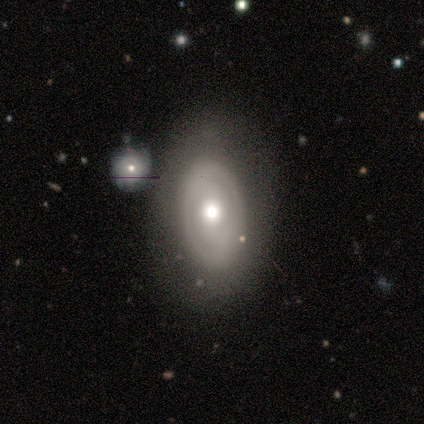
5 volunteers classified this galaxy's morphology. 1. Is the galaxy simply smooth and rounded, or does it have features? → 60% featured or disk, 40% smooth, 0% star or artifact.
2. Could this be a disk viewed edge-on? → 100% no, 0% yes.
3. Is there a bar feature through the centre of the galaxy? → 67% no, 33% weak, 0% strong.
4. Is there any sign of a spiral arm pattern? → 100% yes, 0% no.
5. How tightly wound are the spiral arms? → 33% tight (tied), 33% medium (tied), 33% loose (tied).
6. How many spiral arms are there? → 100% 2, 0% 1, 0% 3, 0% 4, 0% more than 4, 0% can't tell.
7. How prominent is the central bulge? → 100% moderate, 0% dominant, 0% large, 0% small, 0% none.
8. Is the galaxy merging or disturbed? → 100% none, 0% minor disturbance, 0% major disturbance, 0% merger.